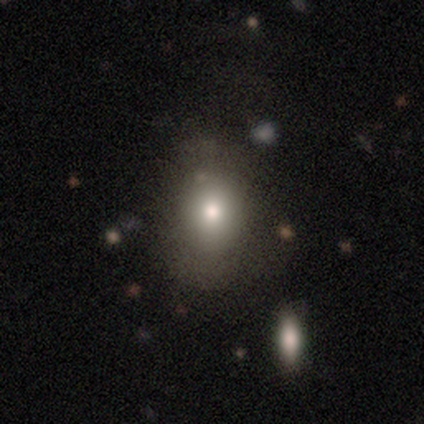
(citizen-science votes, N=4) Morphology: type=smooth (50%, tied with featured or disk); roundness=in between (100%); merging=minor disturbance (50%).